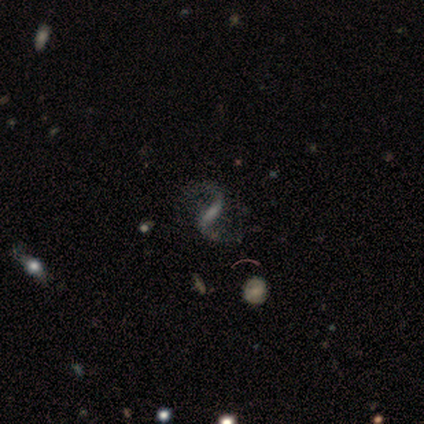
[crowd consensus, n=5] featured or disk 100%, smooth 0%, star or artifact 0%. Down the decision tree: edge-on disk — no (100%); bar — strong (60%); spiral arms — yes (100%); spiral arm count — 2 (100%); spiral winding — loose (80%); bulge size — moderate (40%, tied with small); merging — none (80%).